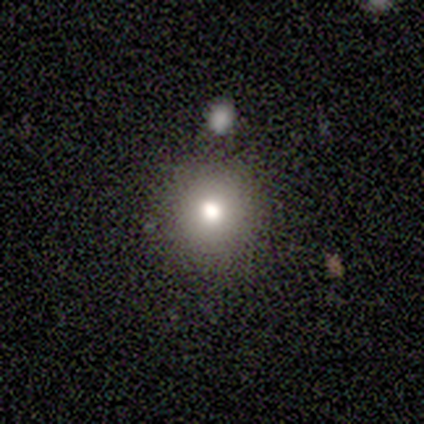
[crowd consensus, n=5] smooth-or-featured: smooth: 60% | featured or disk: 40% | star or artifact: 0%
  how-rounded: in between: 67% | round: 33% | cigar-shaped: 0%
  merging: none: 80% | minor disturbance: 20% | major disturbance: 0% | merger: 0%